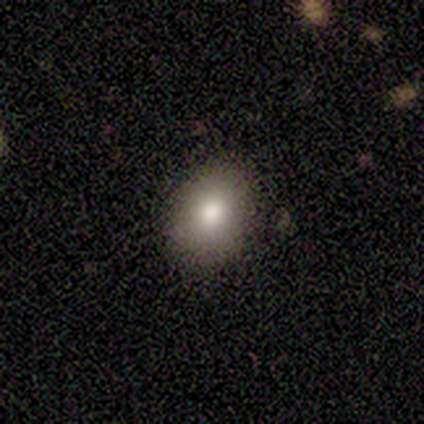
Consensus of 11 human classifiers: Smooth or featured: smooth — 100%
How rounded: in between — 82% (round — 18%)
Merging: none — 82% (minor disturbance — 9%)